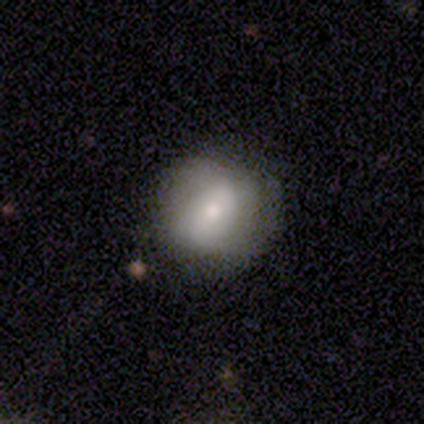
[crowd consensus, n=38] Volunteers were most divided on "smooth or featured": smooth: 66%, featured or disk: 21%, star or artifact: 13%. More confident: how rounded — round (88%); merging — none (76%).